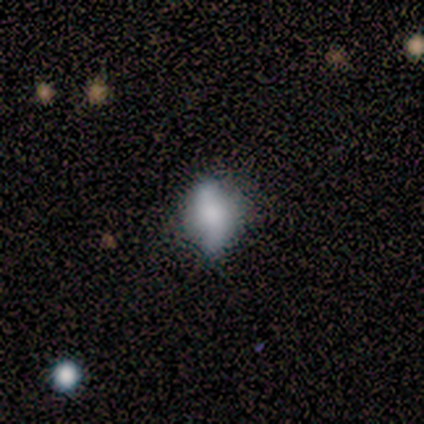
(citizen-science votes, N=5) A smooth galaxy with no disk features (60%) that is in between round and cigar-shaped (100%).

Vote fractions:
- Smooth or featured? smooth: 60% / featured or disk: 40% / star or artifact: 0%
- How rounded? in between: 100% / round: 0% / cigar-shaped: 0%
- Merging? none: 100% / minor disturbance: 0% / major disturbance: 0% / merger: 0%